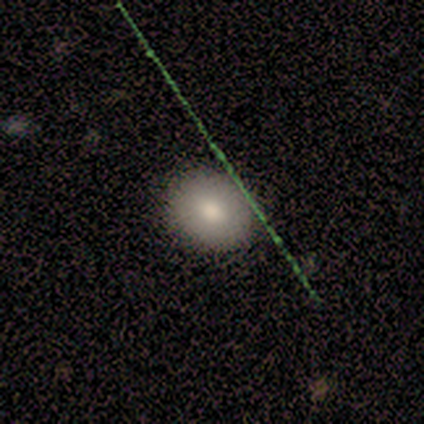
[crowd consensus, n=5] Smooth or featured?
  - smooth: 80% *
  - featured or disk: 20%
  - star or artifact: 0%
How rounded?
  - round: 75% *
  - in between: 25%
  - cigar-shaped: 0%
Merging?
  - none: 80% *
  - minor disturbance: 20%
  - major disturbance: 0%
  - merger: 0%